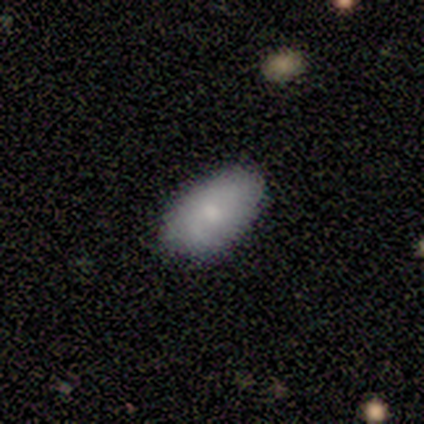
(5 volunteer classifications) Smooth or featured: smooth — 100%
How rounded: in between — 100%
Merging: none — 80% (minor disturbance — 20%)